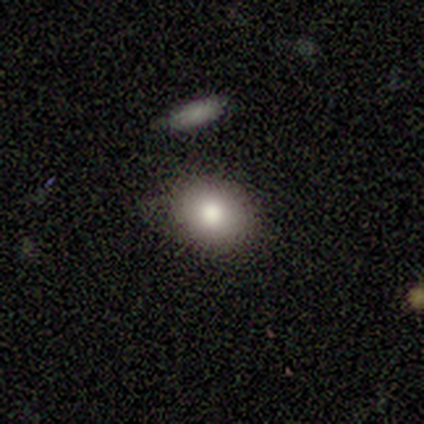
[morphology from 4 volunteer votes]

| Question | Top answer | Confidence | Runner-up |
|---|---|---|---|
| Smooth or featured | smooth | 100% | — |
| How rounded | in between | 75% | round (25%) |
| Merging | none | 50% | tied: minor disturbance (50%) |